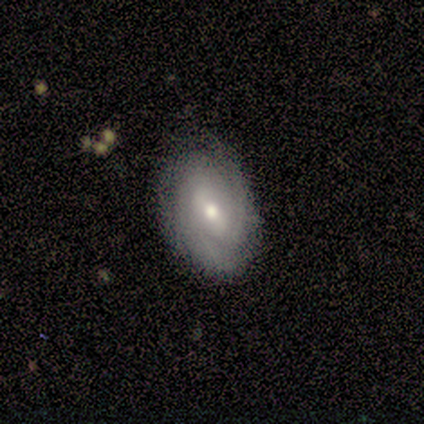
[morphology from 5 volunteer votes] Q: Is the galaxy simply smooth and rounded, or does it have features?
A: featured or disk — 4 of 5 (80%).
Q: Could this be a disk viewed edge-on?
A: no — 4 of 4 (100%).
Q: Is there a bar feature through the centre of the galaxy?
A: weak — 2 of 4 (50%).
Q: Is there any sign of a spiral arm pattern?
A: yes — 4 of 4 (100%).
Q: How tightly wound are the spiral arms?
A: tight — 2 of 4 (50%, tied with medium).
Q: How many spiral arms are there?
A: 2 — 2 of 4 (50%).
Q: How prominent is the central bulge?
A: moderate — 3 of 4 (75%).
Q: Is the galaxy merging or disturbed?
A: minor disturbance — 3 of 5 (60%).